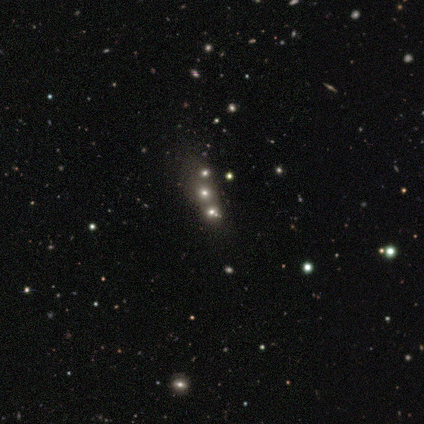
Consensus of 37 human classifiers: star or artifact 46%, smooth 32%, featured or disk 22%.